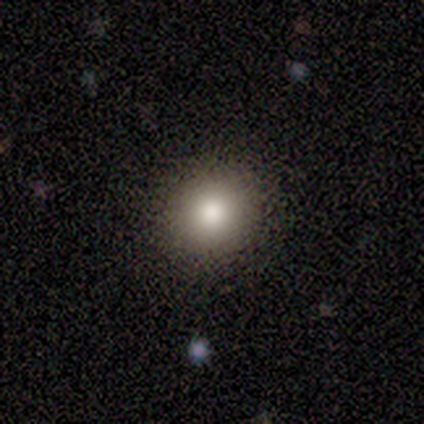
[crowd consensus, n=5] Overall: smooth (80%). How rounded: round (75%). Merging: none (100%).